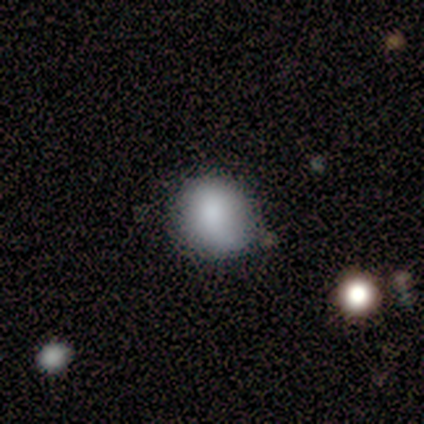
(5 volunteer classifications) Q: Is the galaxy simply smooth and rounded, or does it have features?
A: smooth — 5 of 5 (100%).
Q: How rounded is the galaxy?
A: round — 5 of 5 (100%).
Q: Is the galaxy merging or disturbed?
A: none — 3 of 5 (60%).